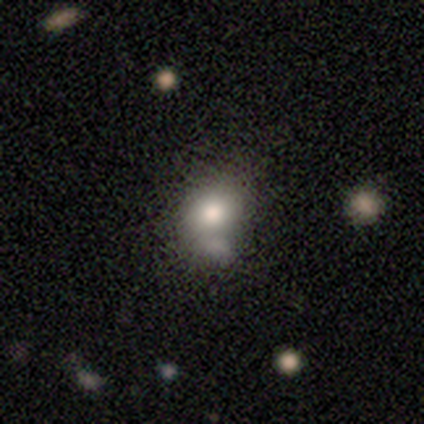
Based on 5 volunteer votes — Overall: smooth (60%; featured or disk 20%). How rounded: round (67%; in between 33%). Merging: merger (50%; none 25%).